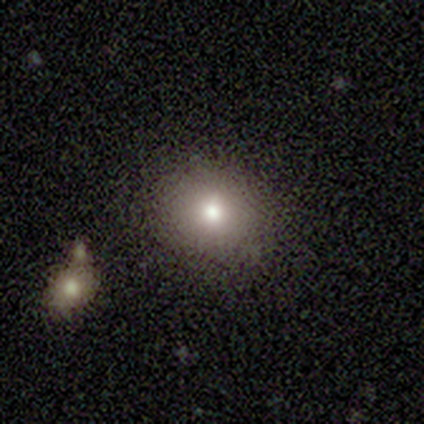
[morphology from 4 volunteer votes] Overall: smooth (100%). How rounded: round (75%). Merging: none (75%).